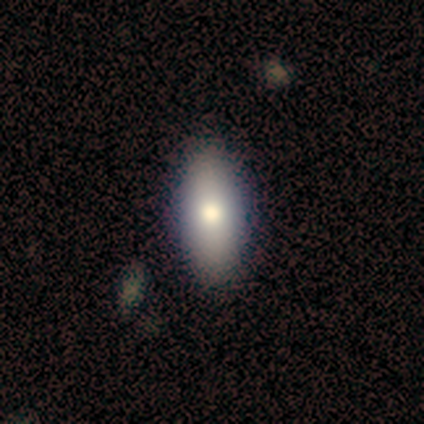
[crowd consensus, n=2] Overall: smooth (50%, tied with featured or disk). How rounded: in between (100%). Merging: none (50%, tied with minor disturbance).